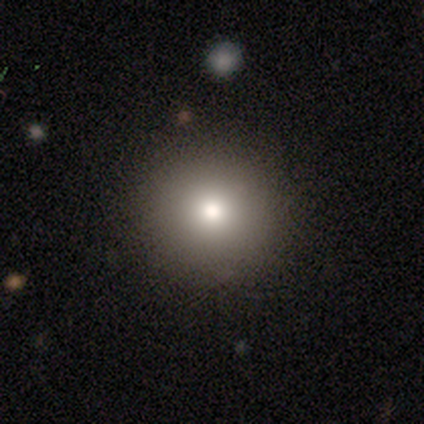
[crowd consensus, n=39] Overall: smooth (67%). How rounded: round (100%). Merging: none (70%).